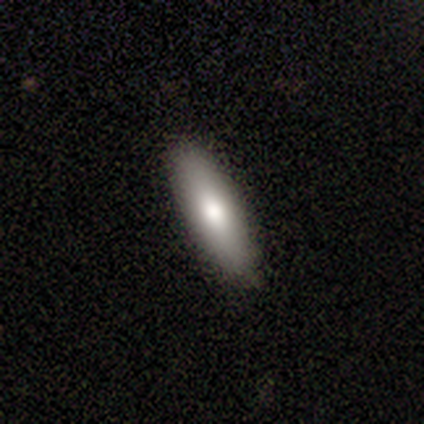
Volunteers were most divided on "smooth or featured": smooth: 80%, featured or disk: 20%, star or artifact: 0%. More confident: how rounded — cigar-shaped (100%); merging — none (80%).